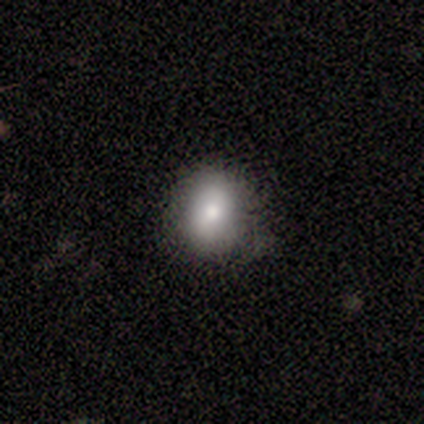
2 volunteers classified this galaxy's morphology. Smooth or featured?
  - smooth: 100% *
  - featured or disk: 0%
  - star or artifact: 0%
How rounded?
  - round: 50% * (tied)
  - in between: 50% * (tied)
  - cigar-shaped: 0%
Merging?
  - none: 100% *
  - minor disturbance: 0%
  - major disturbance: 0%
  - merger: 0%